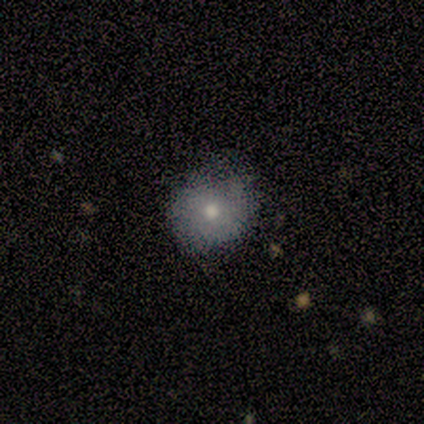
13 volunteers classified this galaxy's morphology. Smooth or featured? 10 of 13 (77%) said smooth. How rounded? 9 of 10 (90%) said round. Merging? 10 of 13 (77%) said none.